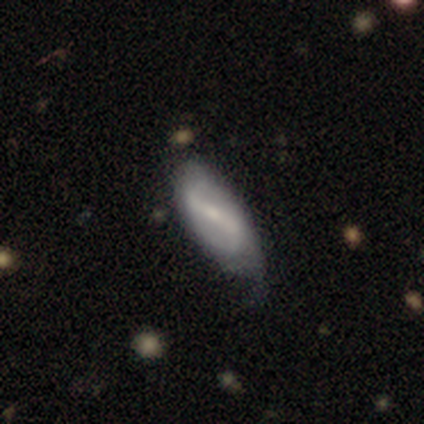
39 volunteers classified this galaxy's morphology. Smooth or featured: featured or disk — 82% (smooth — 15%)
Edge-on disk: no — 91% (yes — 9%)
Bar: strong — 69% (weak — 24%)
Spiral arms: yes — 83% (no — 17%)
Spiral winding: loose — 67% (medium — 25%)
Spiral arm count: 2 — 92% (1 — 4%)
Bulge size: small — 59% (moderate — 31%)
Merging: none — 32% (minor disturbance — 29%)